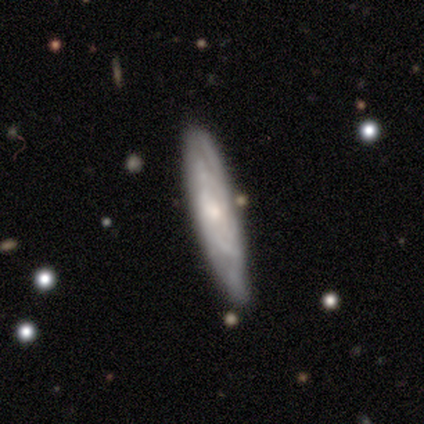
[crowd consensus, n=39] This is likely a featured or disk galaxy (72%). It is possibly viewed edge-on (50%, tied with no). Edge-on bulge: possibly rounded (57%). Merging: clearly none (82%).